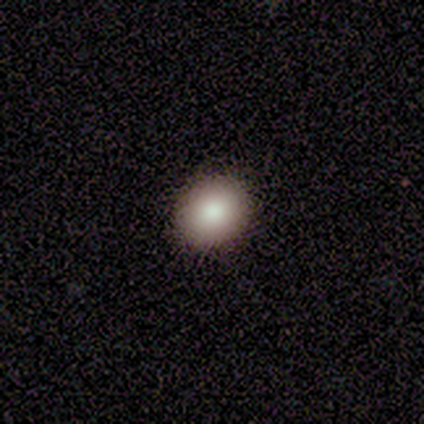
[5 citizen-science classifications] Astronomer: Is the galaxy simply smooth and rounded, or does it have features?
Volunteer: smooth — 80%.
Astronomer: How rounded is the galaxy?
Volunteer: in between — 75%.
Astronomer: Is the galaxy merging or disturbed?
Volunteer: none — 100%.